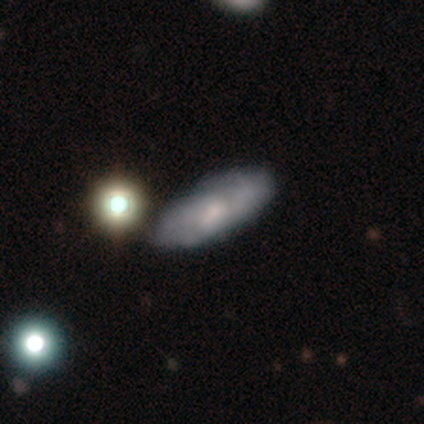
Smooth or featured? 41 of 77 (53%) said featured or disk. Edge-on disk? 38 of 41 (93%) said no. Bar? 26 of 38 (68%) said no. Spiral arms? 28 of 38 (74%) said yes. Spiral winding? 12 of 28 (43%) said medium. Spiral arm count? 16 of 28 (57%) said can't tell. Bulge size? 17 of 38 (45%) said small. Merging? 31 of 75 (41%) said none.